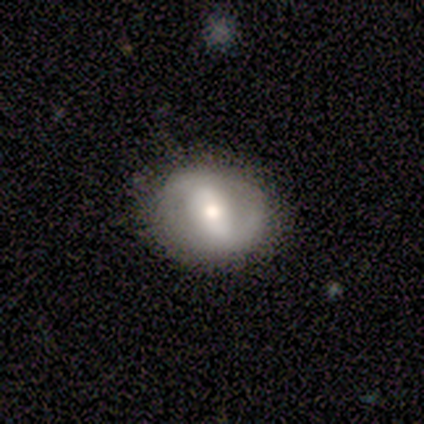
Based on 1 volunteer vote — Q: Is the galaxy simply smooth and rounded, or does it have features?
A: featured or disk — 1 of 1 (100%).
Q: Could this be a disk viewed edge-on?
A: no — 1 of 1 (100%).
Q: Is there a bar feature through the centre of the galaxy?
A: weak — 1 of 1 (100%).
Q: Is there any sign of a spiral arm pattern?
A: yes — 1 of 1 (100%).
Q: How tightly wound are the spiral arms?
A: tight — 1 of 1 (100%).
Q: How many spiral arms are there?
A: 2 — 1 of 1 (100%).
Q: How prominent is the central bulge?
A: small — 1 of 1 (100%).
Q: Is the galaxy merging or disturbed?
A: none — 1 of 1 (100%).